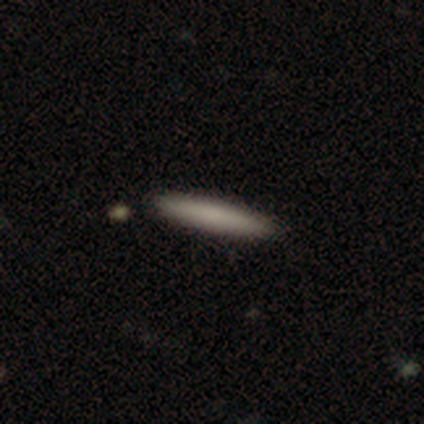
Overall: smooth (80%). How rounded: cigar-shaped (100%). Merging: none (60%; minor disturbance 40%).